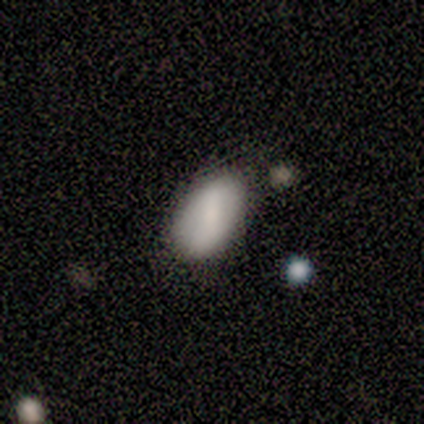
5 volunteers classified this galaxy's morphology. type=smooth (60%); roundness=in between (100%); merging=none (40%, tied with minor disturbance).